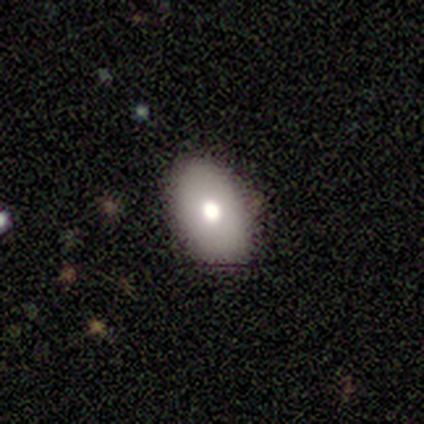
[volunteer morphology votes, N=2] type=smooth (50%, tied with featured or disk); roundness=in between (100%); merging=none (100%).